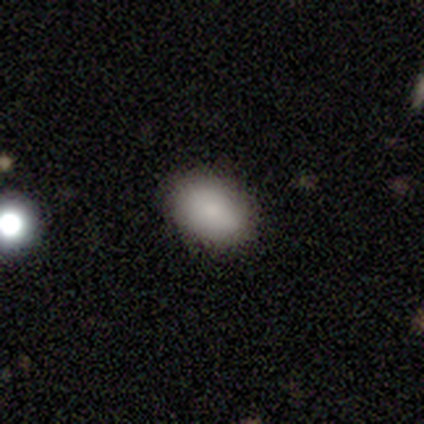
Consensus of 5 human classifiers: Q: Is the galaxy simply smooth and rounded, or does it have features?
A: smooth — 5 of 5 (100%).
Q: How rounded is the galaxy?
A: in between — 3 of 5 (60%).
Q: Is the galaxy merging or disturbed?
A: none — 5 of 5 (100%).